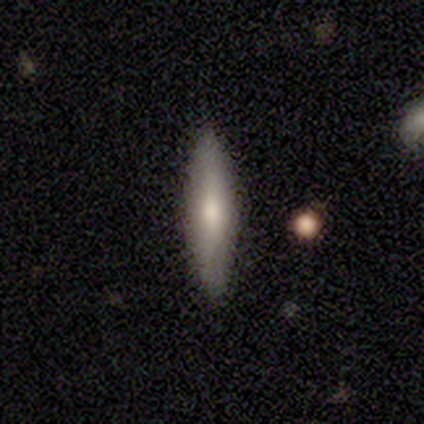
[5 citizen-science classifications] Morphology: type=smooth (60%); roundness=cigar-shaped (100%); merging=none (100%).